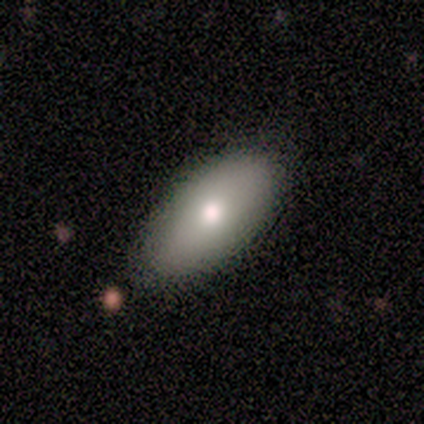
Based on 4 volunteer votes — Overall: smooth (50%, tied with featured or disk). How rounded: in between (100%). Merging: none (100%).